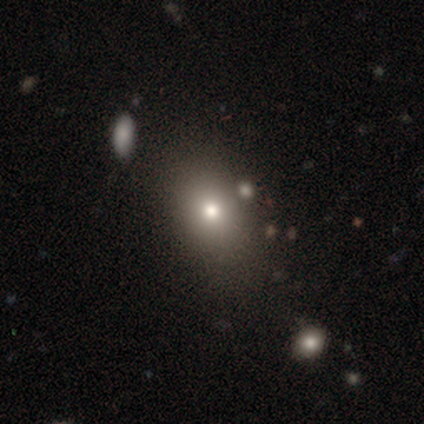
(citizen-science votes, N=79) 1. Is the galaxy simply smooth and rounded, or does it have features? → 84% smooth, 9% star or artifact, 8% featured or disk.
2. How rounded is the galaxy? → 62% in between, 36% round, 2% cigar-shaped.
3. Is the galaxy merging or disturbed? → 43% none, 6% minor disturbance, 6% merger, 0% major disturbance.